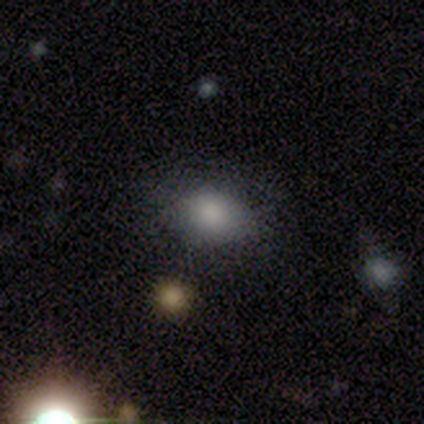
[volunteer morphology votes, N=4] Q: Smooth or featured?
A: smooth (100%)
Q: How rounded?
A: in between (100%)
Q: Merging?
A: none (100%)